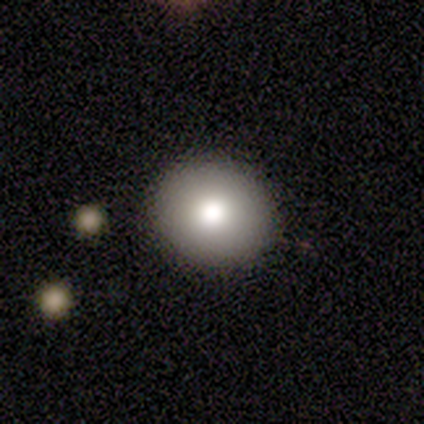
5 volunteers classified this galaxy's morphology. Smooth or featured?
  - smooth: 100% *
  - featured or disk: 0%
  - star or artifact: 0%
How rounded?
  - round: 80% *
  - in between: 20%
  - cigar-shaped: 0%
Merging?
  - none: 100% *
  - minor disturbance: 0%
  - major disturbance: 0%
  - merger: 0%